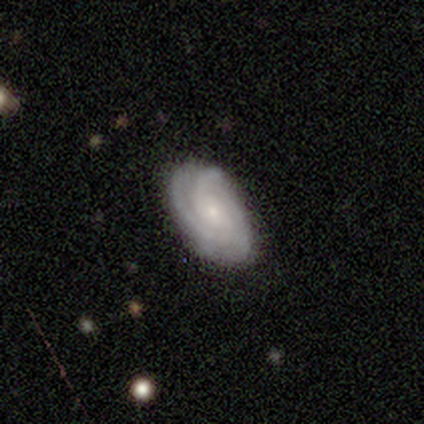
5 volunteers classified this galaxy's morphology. Overall: featured or disk (100%). Edge-on disk: no (100%). Bar: no (80%). Spiral arms: yes (100%). Spiral arm count: 3 (60%; 4 20%). Spiral winding: tight (100%). Bulge size: small (60%; moderate 40%). Merging: none (60%; minor disturbance 40%).